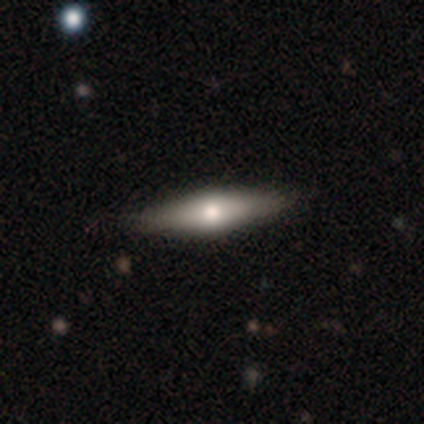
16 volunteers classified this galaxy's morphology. A featured or disk galaxy (62%) viewed edge-on (70%) with a rounded central bulge (100%).

Vote fractions:
- Smooth or featured? featured or disk: 62% / smooth: 31% / star or artifact: 6%
- Edge-on disk? yes: 70% / no: 30%
- Edge-on bulge? rounded: 100% / boxy: 0% / none: 0%
- Merging? none: 80% / minor disturbance: 20% / major disturbance: 0% / merger: 0%